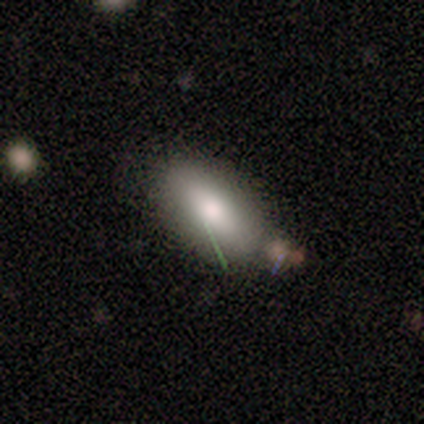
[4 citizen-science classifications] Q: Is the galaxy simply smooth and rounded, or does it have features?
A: smooth — 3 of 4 (75%).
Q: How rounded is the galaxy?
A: in between — 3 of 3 (100%).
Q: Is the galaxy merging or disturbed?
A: none — 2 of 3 (67%).